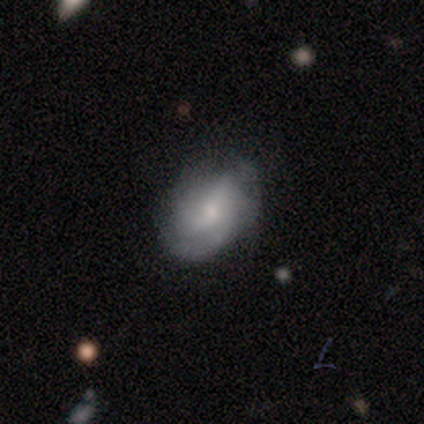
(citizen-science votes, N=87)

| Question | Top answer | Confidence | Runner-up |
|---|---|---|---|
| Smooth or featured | featured or disk | 59% | smooth (36%) |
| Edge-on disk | no | 98% | yes (2%) |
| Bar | no | 50% | weak (44%) |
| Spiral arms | yes | 88% | no (12%) |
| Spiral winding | medium | 48% | tight (41%) |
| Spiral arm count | can't tell | 41% | 3 (30%) |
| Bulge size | small | 60% | moderate (34%) |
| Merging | none | 57% | minor disturbance (29%) |